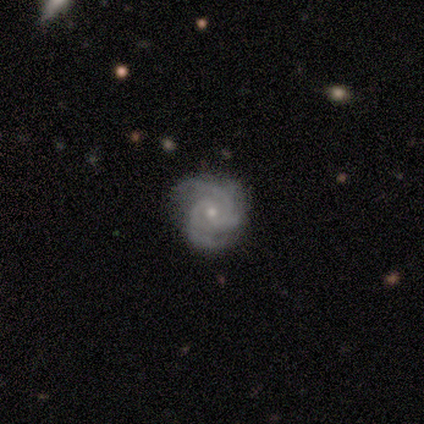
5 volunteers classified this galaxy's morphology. Smooth or featured: featured or disk — 100%
Edge-on disk: no — 100%
Bar: no — 80% (weak — 20%)
Spiral arms: yes — 100%
Spiral winding: tight — 80% (medium — 20%)
Spiral arm count: 3 — 60% (2 — 20%)
Bulge size: small — 80% (moderate — 20%)
Merging: none — 100%